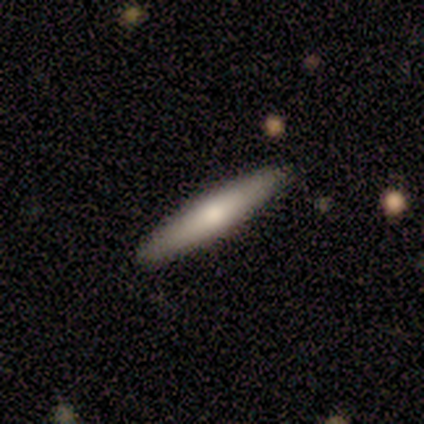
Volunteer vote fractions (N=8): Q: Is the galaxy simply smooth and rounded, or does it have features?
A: smooth — 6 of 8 (75%).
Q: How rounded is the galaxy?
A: cigar-shaped — 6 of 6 (100%).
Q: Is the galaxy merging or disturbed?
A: none — 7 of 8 (88%).